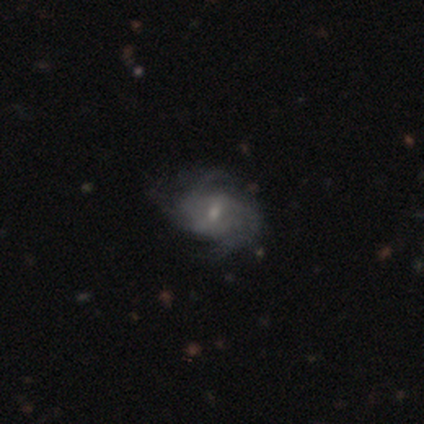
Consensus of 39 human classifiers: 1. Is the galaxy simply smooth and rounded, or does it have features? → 85% featured or disk, 8% smooth, 8% star or artifact.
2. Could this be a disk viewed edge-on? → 100% no, 0% yes.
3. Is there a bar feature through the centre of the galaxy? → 55% weak, 42% no, 3% strong.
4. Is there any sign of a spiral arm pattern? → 97% yes, 3% no.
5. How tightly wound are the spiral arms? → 41% tight, 34% medium, 25% loose.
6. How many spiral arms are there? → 41% 2, 38% can't tell, 19% 3, 3% 4, 0% 1, 0% more than 4.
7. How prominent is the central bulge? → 64% small, 33% moderate, 3% none, 0% dominant, 0% large.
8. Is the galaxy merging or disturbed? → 69% none, 22% minor disturbance, 8% major disturbance, 0% merger.